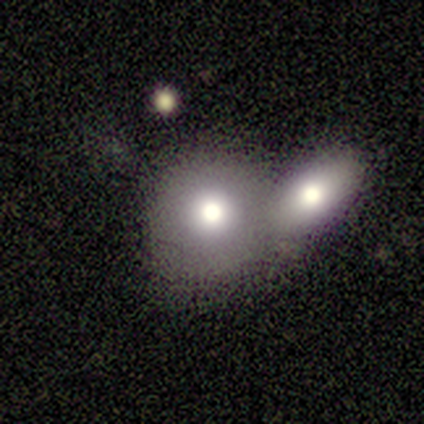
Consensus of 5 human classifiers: Smooth or featured?
  - smooth: 80% *
  - featured or disk: 20%
  - star or artifact: 0%
How rounded?
  - round: 75% *
  - in between: 25%
  - cigar-shaped: 0%
Merging?
  - none: 40% * (tied)
  - merger: 40% * (tied)
  - minor disturbance: 20%
  - major disturbance: 0%